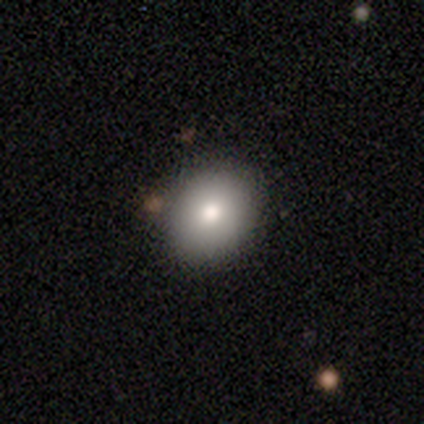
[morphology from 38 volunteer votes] This appears to be a smooth galaxy with no disk features (82%) that is round (52%). Merging: none (86%).